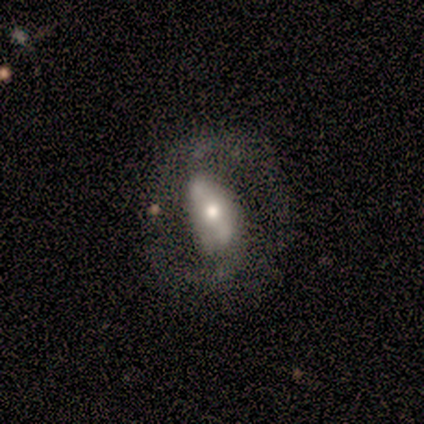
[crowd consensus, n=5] Smooth or featured?
  - smooth: 40% * (tied)
  - featured or disk: 40% * (tied)
  - star or artifact: 20%
How rounded?
  - in between: 100% *
  - round: 0%
  - cigar-shaped: 0%
Merging?
  - none: 75% *
  - minor disturbance: 25%
  - major disturbance: 0%
  - merger: 0%